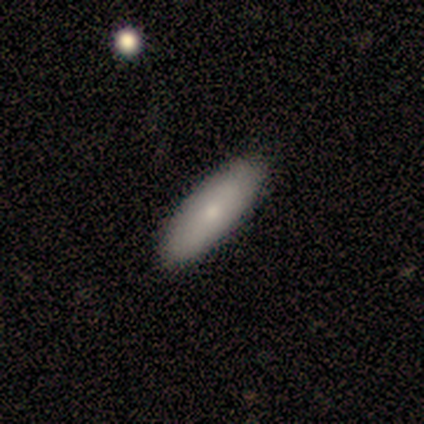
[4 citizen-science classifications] Smooth or featured?
  - smooth: 100% *
  - featured or disk: 0%
  - star or artifact: 0%
How rounded?
  - cigar-shaped: 75% *
  - in between: 25%
  - round: 0%
Merging?
  - none: 75% *
  - minor disturbance: 25%
  - major disturbance: 0%
  - merger: 0%